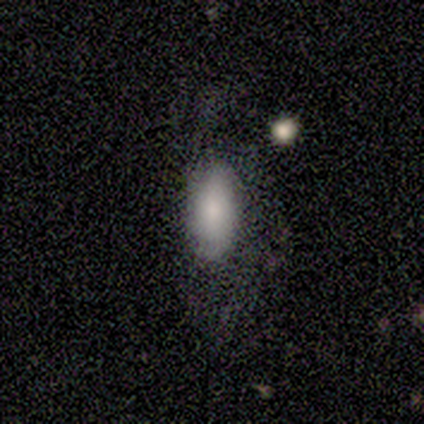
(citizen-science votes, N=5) Volunteers were most divided on "merging" (2-way tie): none: 50%, major disturbance: 50%, minor disturbance: 0%, merger: 0%. More confident: how rounded — in between (100%); smooth or featured — smooth (60%).